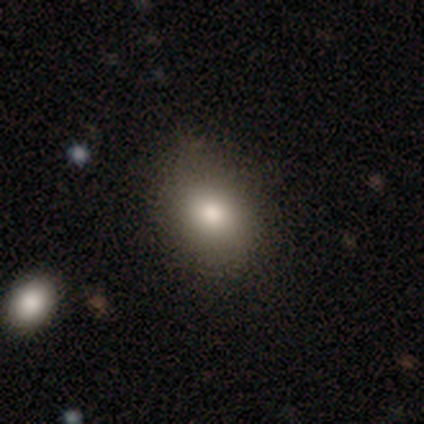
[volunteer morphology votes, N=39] Q: Smooth or featured?
A: smooth (69%); runner-up: featured or disk (15%)
Q: How rounded?
A: in between (59%); runner-up: round (41%)
Q: Merging?
A: none (79%); runner-up: minor disturbance (18%)